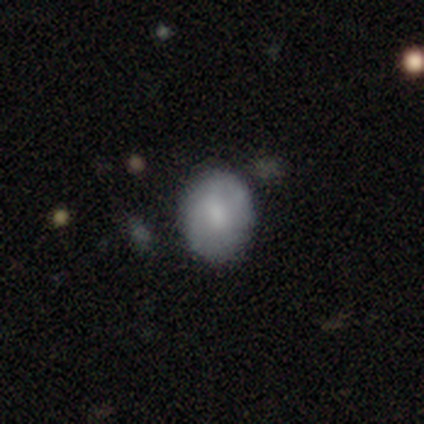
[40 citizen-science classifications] Smooth or featured?
  - smooth: 85% *
  - featured or disk: 12%
  - star or artifact: 2%
How rounded?
  - round: 59% *
  - in between: 41%
  - cigar-shaped: 0%
Merging?
  - none: 82% *
  - minor disturbance: 10%
  - major disturbance: 8%
  - merger: 0%